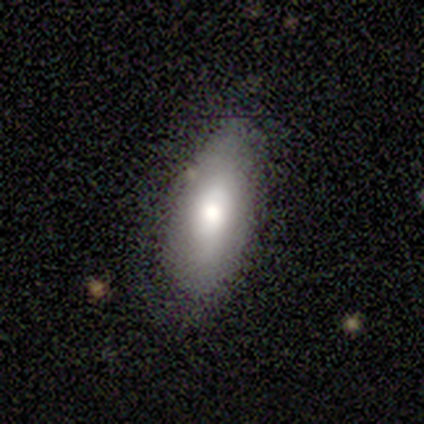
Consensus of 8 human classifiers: Volunteers were most divided on "smooth or featured" (2-way tie): smooth: 50%, featured or disk: 50%, star or artifact: 0%. More confident: how rounded — in between (100%); merging — none (50%).